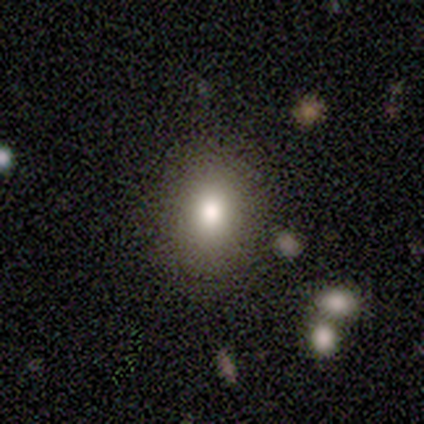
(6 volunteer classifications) Smooth or featured? 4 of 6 (67%) said smooth. How rounded? 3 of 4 (75%) said round. Merging? 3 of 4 (75%) said none.